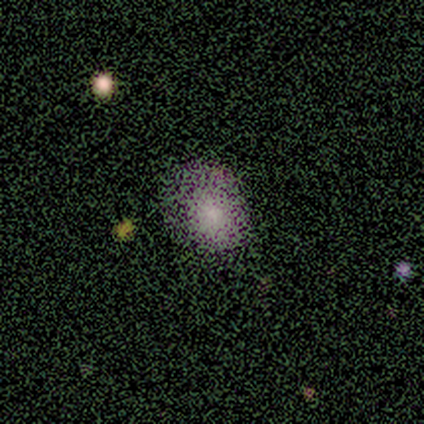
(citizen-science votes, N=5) Smooth or featured? 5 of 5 (100%) said smooth. How rounded? 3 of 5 (60%) said in between. Merging? 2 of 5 (40%, tied with minor disturbance) said none.